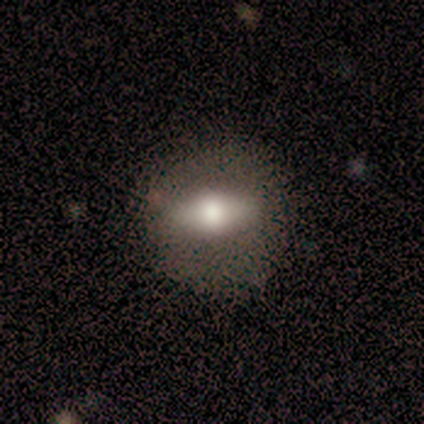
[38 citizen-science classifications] This is possibly a smooth galaxy (50%). How rounded: possibly in between (58%). Merging: clearly none (83%).